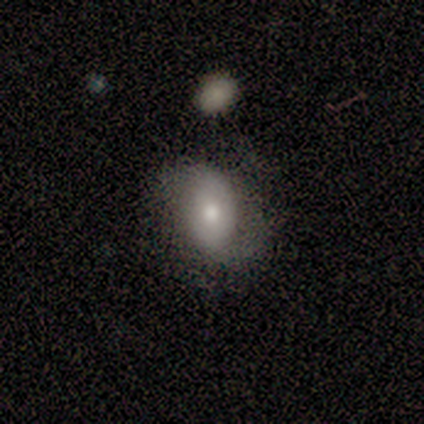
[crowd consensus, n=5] Smooth or featured? smooth (60%)
How rounded? in between (100%)
Merging? none (80%)